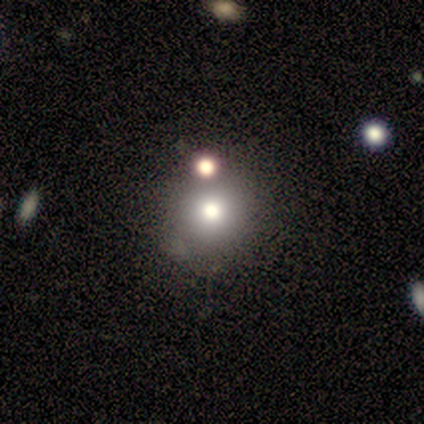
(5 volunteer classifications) A smooth galaxy with no disk features (100%) that is round (100%). Merging: none (80%).